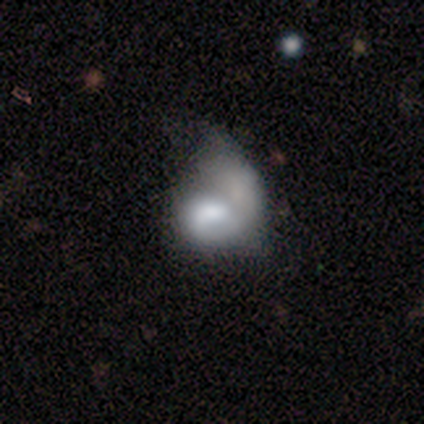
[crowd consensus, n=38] Smooth or featured?
  - featured or disk: 58% *
  - smooth: 39%
  - star or artifact: 3%
Edge-on disk?
  - no: 100% *
  - yes: 0%
Bar?
  - no: 73% *
  - weak: 27%
  - strong: 0%
Spiral arms?
  - no: 64% *
  - yes: 36%
Bulge size?
  - large: 32% *
  - moderate: 23%
  - small: 23%
  - none: 14%
  - dominant: 9%
Merging?
  - merger: 38% *
  - major disturbance: 30%
  - minor disturbance: 5%
  - none: 3%